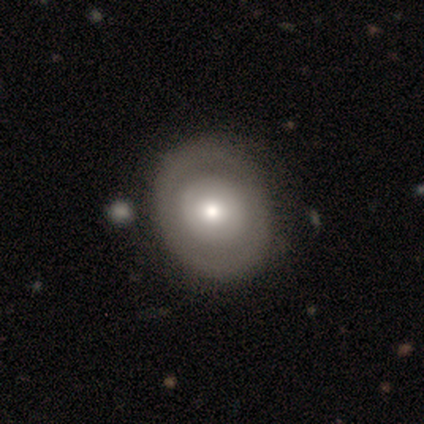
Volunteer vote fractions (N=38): Q: Smooth or featured?
A: featured or disk (50%); runner-up: smooth (47%)
Q: Edge-on disk?
A: no (100%)
Q: Bar?
A: no (100%)
Q: Spiral arms?
A: no (84%); runner-up: yes (16%)
Q: Bulge size?
A: moderate (63%); runner-up: small (21%)
Q: Merging?
A: none (57%); runner-up: minor disturbance (8%)